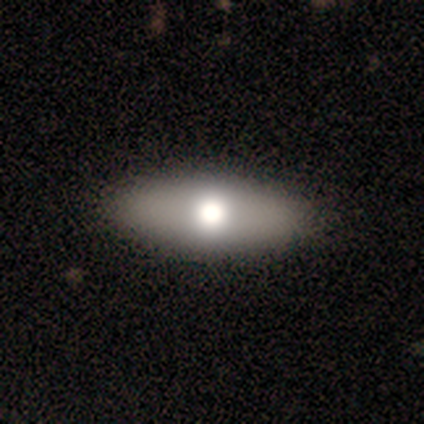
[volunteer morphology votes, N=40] type=smooth (65%); roundness=in between (81%); merging=none (62%).